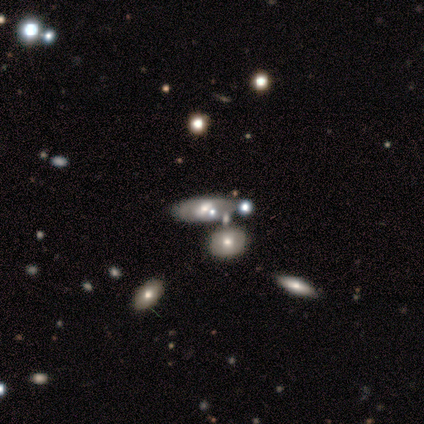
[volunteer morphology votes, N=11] Volunteers were most divided on "merging": none: 62%, minor disturbance: 38%, major disturbance: 0%, merger: 0%. More confident: how rounded — in between (100%); smooth or featured — smooth (64%).